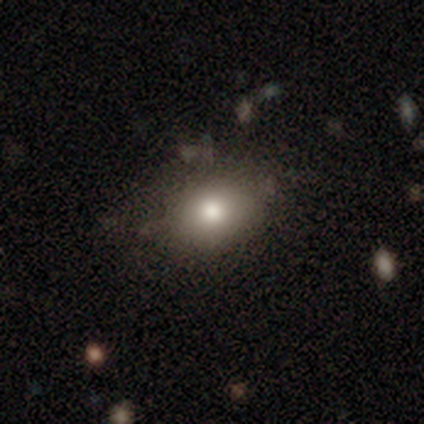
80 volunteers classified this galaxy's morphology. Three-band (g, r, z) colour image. It shows a smooth galaxy with no disk features (80%) that is in between round and cigar-shaped (72%). Merging: none (41%).